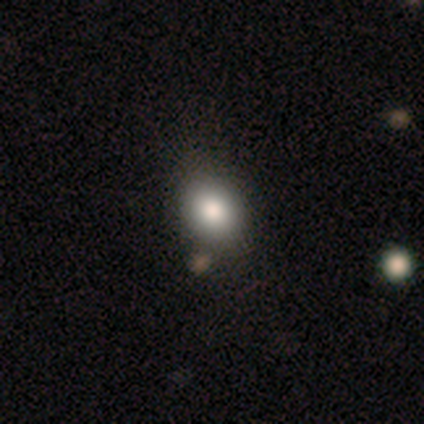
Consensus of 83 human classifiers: Smooth or featured?
  - smooth: 73% *
  - featured or disk: 13%
  - star or artifact: 13%
How rounded?
  - round: 52% *
  - in between: 48%
  - cigar-shaped: 0%
Merging?
  - none: 72% *
  - minor disturbance: 15%
  - merger: 10%
  - major disturbance: 3%